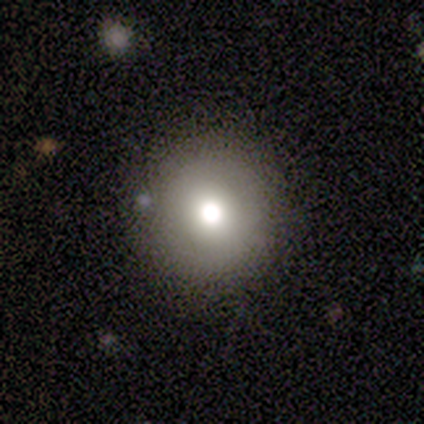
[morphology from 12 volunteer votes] smooth_or_featured: smooth (p=0.67) [alt: star or artifact p=0.25]
how_rounded: round (p=1.00)
merging: none (p=0.67) [alt: minor disturbance p=0.22]